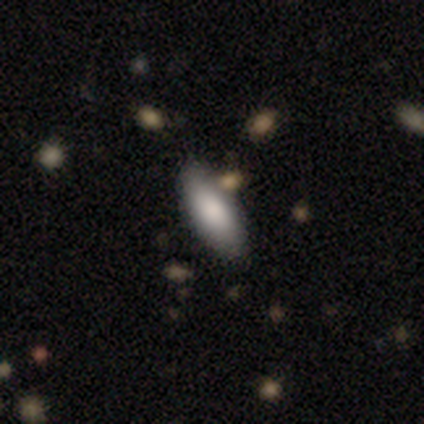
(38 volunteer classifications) Volunteers were most divided on "how rounded": in between: 83%, cigar-shaped: 17%, round: 0%. More confident: smooth or featured — smooth (92%); merging — none (83%).